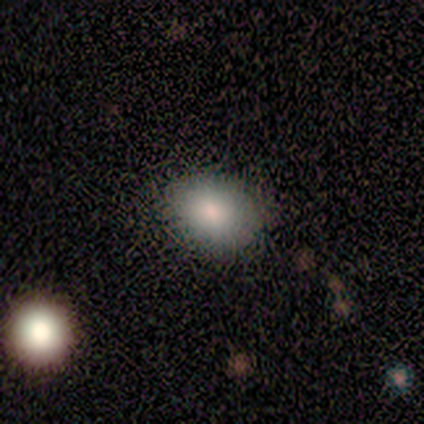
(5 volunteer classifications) Smooth or featured? 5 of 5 (100%) said smooth. How rounded? 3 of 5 (60%) said in between. Merging? 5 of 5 (100%) said none.